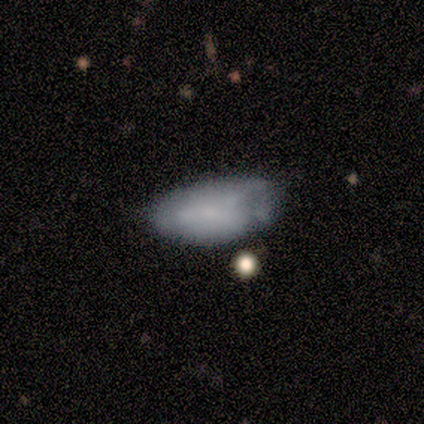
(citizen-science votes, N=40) Q: Smooth or featured?
A: smooth (62%); runner-up: featured or disk (35%)
Q: How rounded?
A: in between (96%); runner-up: cigar-shaped (4%)
Q: Merging?
A: minor disturbance (49%); runner-up: none (31%)